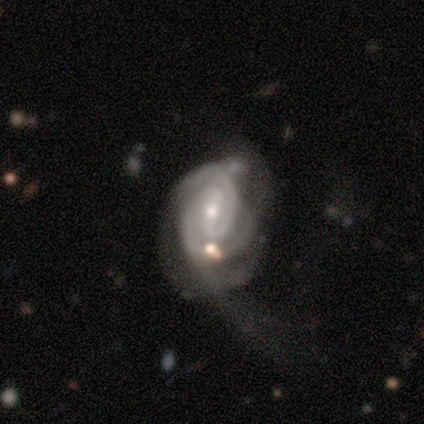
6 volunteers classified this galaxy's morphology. Smooth or featured? 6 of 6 (100%) said featured or disk. Edge-on disk? 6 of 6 (100%) said no. Bar? 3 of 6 (50%, tied with weak) said strong. Spiral arms? 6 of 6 (100%) said yes. Spiral winding? 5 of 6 (83%) said tight. Spiral arm count? 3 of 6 (50%) said 2. Bulge size? 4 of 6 (67%) said moderate. Merging? 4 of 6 (67%) said major disturbance.